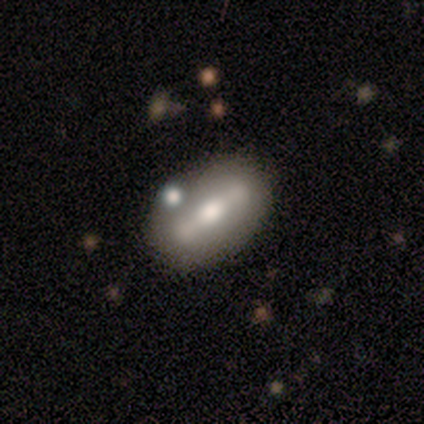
featured or disk 80%, star or artifact 20%, smooth 0%. Down the decision tree: edge-on disk — no (75%); bar — strong (100%); spiral arms — no (100%); bulge size — moderate (67%); merging — merger (50%).